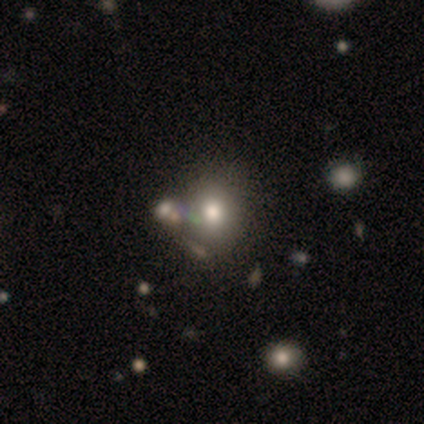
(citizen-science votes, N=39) A smooth galaxy with no disk features (72%) that is round (82%). Merging: none (39%).